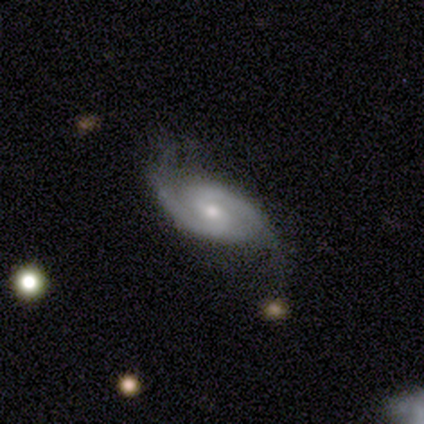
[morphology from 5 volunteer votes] A featured or disk galaxy (100%) with a weak bar (50%, tied with no), 2 (75%) medium (75%) spiral arms (100%) and a moderate central bulge (50%, tied with small).

Vote fractions:
- Smooth or featured? featured or disk: 100% / smooth: 0% / star or artifact: 0%
- Edge-on disk? no: 80% / yes: 20%
- Bar? weak: 50% (tied) / no: 50% (tied) / strong: 0%
- Spiral arms? yes: 100% / no: 0%
- Spiral winding? medium: 75% / tight: 25% / loose: 0%
- Spiral arm count? 2: 75% / 1: 25% / 3: 0% / 4: 0% / more than 4: 0% / can't tell: 0%
- Bulge size? moderate: 50% (tied) / small: 50% (tied) / dominant: 0% / large: 0% / none: 0%
- Merging? none: 60% / minor disturbance: 40% / major disturbance: 0% / merger: 0%